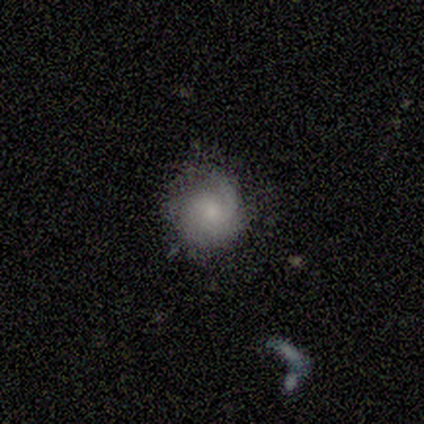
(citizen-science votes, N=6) A smooth galaxy with no disk features (67%) that is round (100%). Merging: none (83%).